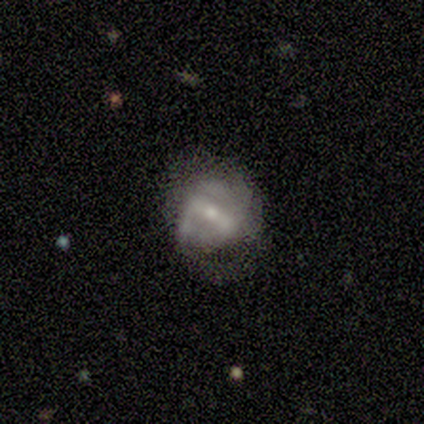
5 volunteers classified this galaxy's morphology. A featured or disk galaxy (80%) with a strong bar (100%), 2 (100%) medium (67%) spiral arms (75%) and a small central bulge (100%).

Vote fractions:
- Smooth or featured? featured or disk: 80% / smooth: 20% / star or artifact: 0%
- Edge-on disk? no: 100% / yes: 0%
- Bar? strong: 100% / weak: 0% / no: 0%
- Spiral arms? yes: 75% / no: 25%
- Spiral winding? medium: 67% / tight: 33% / loose: 0%
- Spiral arm count? 2: 100% / 1: 0% / 3: 0% / 4: 0% / more than 4: 0% / can't tell: 0%
- Bulge size? small: 100% / dominant: 0% / large: 0% / moderate: 0% / none: 0%
- Merging? minor disturbance: 60% / none: 40% / major disturbance: 0% / merger: 0%